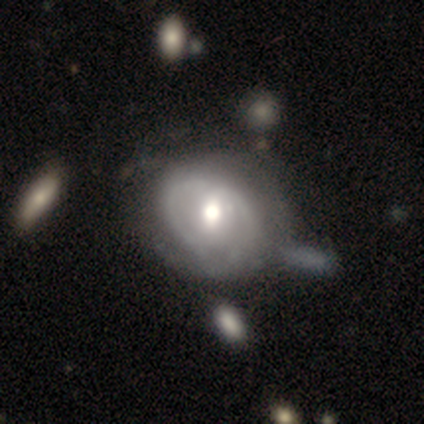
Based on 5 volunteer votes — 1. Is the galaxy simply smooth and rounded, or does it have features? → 40% smooth (tied), 40% featured or disk (tied), 20% star or artifact.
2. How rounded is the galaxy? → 50% round (tied), 50% in between (tied), 0% cigar-shaped.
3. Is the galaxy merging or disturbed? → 50% none, 25% minor disturbance, 25% merger, 0% major disturbance.